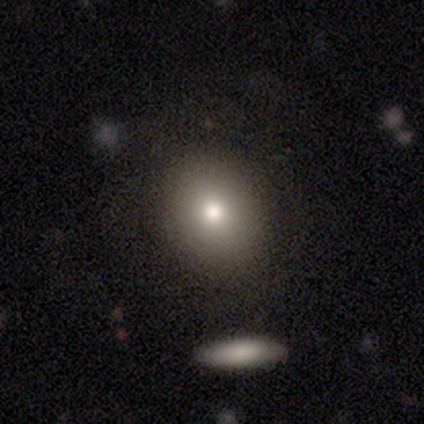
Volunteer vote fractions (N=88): This appears to be a smooth galaxy with no disk features (76%) that is round (72%). Merging: none (79%).